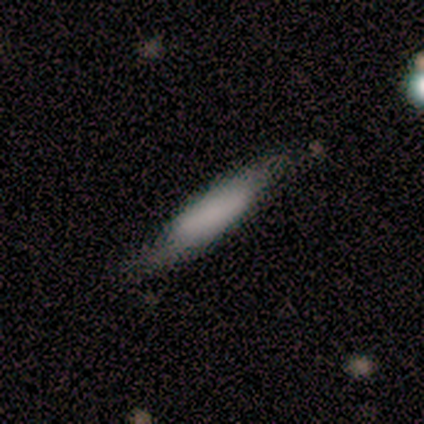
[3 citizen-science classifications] Smooth or featured?
  - featured or disk: 67% *
  - smooth: 33%
  - star or artifact: 0%
Edge-on disk?
  - yes: 50% * (tied)
  - no: 50% * (tied)
Edge-on bulge?
  - none: 100% *
  - boxy: 0%
  - rounded: 0%
Merging?
  - none: 100% *
  - minor disturbance: 0%
  - major disturbance: 0%
  - merger: 0%